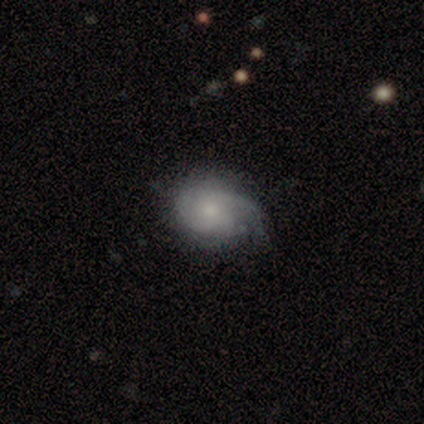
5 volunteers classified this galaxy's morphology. type=featured or disk (60%); edge-on=no (100%); bar=no (100%); spiral arms=yes (100%); winding=tight (33%, tied with medium and loose); arm count=1 (67%); bulge=small (67%); merging=minor disturbance (60%).